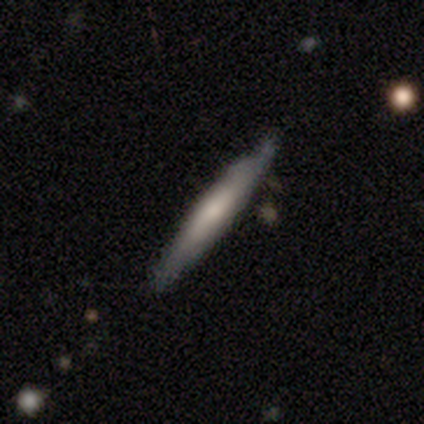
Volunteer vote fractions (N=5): smooth 60%, featured or disk 40%, star or artifact 0%. Down the decision tree: how rounded — cigar-shaped (100%); merging — none (60%).